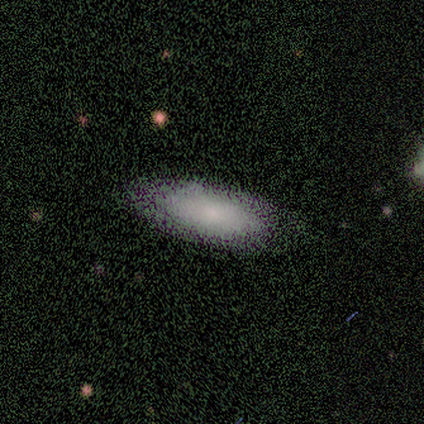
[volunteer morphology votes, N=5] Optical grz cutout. It shows a smooth galaxy with no disk features (60%) that is in between round and cigar-shaped (100%). Merging: none (50%).